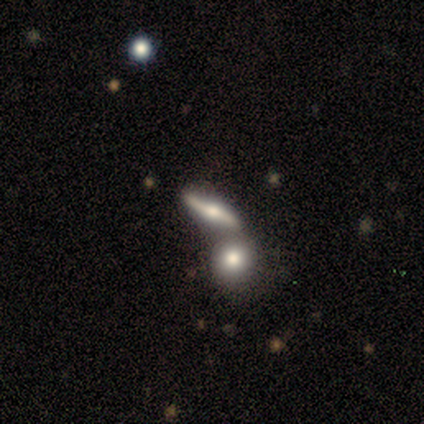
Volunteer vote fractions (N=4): featured or disk 75%, smooth 25%, star or artifact 0%. Down the decision tree: edge-on disk — yes (100%); edge-on bulge — rounded (100%); merging — none (50%).